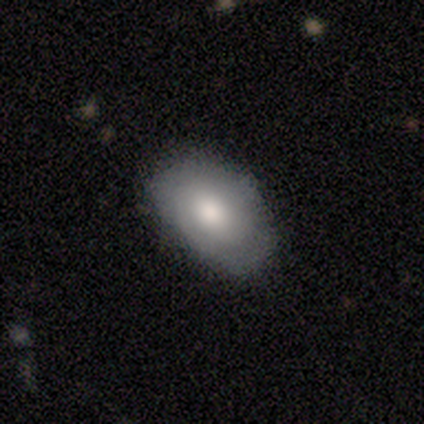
Smooth or featured? smooth (60%)
How rounded? in between (100%)
Merging? none (100%)